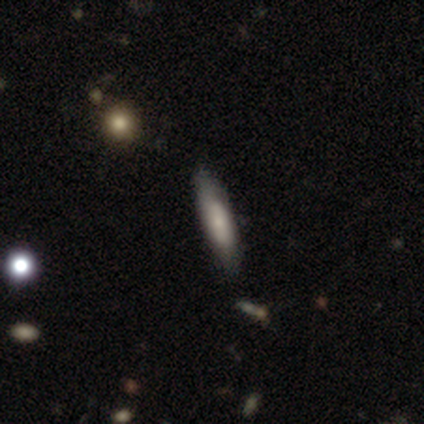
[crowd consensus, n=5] Smooth or featured? 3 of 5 (60%) said featured or disk. Edge-on disk? 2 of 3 (67%) said yes. Edge-on bulge? 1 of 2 (50%, tied with none) said boxy. Merging? 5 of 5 (100%) said none.